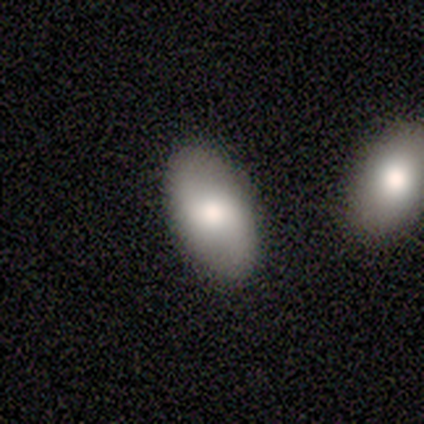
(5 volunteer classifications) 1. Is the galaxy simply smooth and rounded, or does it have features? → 80% smooth, 20% star or artifact, 0% featured or disk.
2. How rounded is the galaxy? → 100% in between, 0% round, 0% cigar-shaped.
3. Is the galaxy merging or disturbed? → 75% none, 25% minor disturbance, 0% major disturbance, 0% merger.